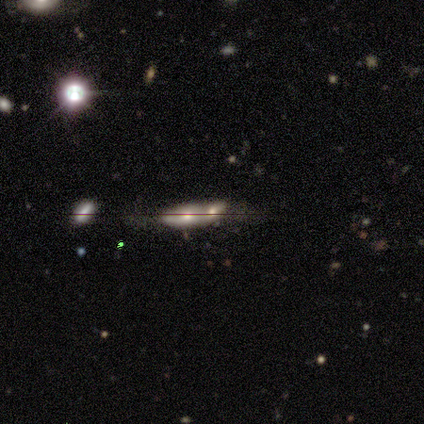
Smooth or featured? smooth (40%, tied with featured or disk)
How rounded? in between (100%)
Merging? merger (75%)